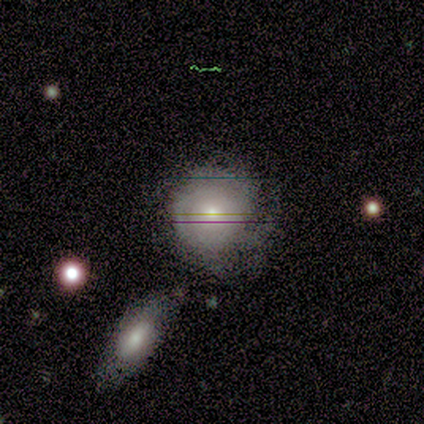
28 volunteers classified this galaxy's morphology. Volunteers were most divided on "spiral arms" (2-way tie): yes: 50%, no: 50%. Remaining: edge-on disk — no (100%); bar — no (100%); spiral winding — tight (100%); spiral arm count — can't tell (67%); bulge size — small (58%); merging — none (52%); smooth or featured — featured or disk (43%).